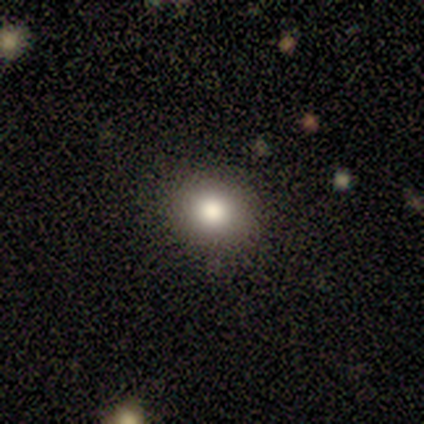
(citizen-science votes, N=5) smooth_or_featured: smooth (p=0.80) [alt: featured or disk p=0.20]
how_rounded: round (p=1.00)
merging: none (p=0.80) [alt: minor disturbance p=0.20]